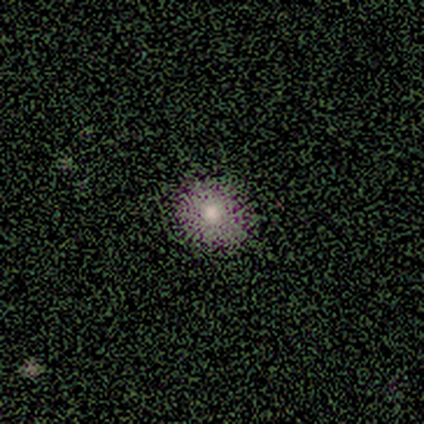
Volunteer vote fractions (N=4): Smooth or featured? 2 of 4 (50%, tied with star or artifact) said smooth. How rounded? 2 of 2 (100%) said round. Merging? 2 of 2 (100%) said none.